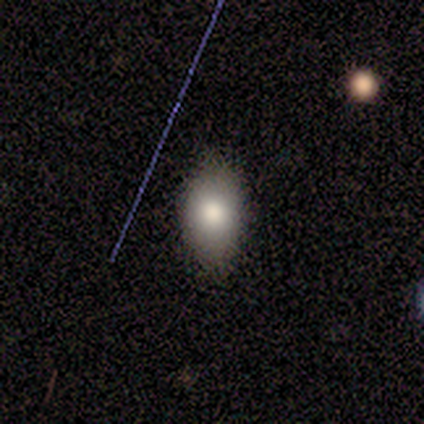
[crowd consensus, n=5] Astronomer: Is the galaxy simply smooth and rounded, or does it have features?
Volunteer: smooth — 80%.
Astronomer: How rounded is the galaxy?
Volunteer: in between — 100%.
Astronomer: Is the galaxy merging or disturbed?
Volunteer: none — 75%.